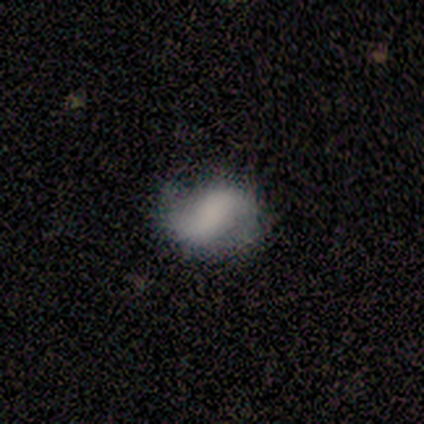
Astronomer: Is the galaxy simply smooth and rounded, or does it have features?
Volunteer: smooth — 50% (runner-up: featured or disk, 40%).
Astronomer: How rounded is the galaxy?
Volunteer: in between — 80%.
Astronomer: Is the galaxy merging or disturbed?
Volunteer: minor disturbance — 44% (runner-up: none, 33%).